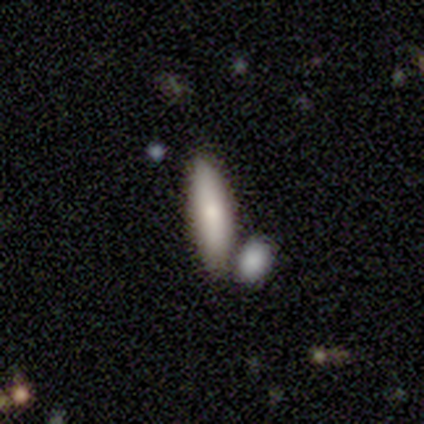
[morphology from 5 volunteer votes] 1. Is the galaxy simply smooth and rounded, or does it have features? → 80% smooth, 20% featured or disk, 0% star or artifact.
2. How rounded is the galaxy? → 75% in between, 25% cigar-shaped, 0% round.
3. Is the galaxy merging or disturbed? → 80% none, 20% minor disturbance, 0% major disturbance, 0% merger.